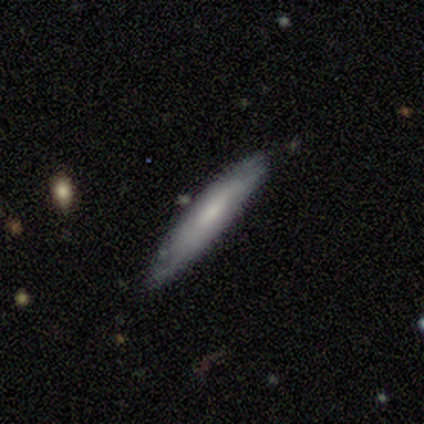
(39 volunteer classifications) Smooth or featured? 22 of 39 (56%) said smooth. How rounded? 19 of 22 (86%) said cigar-shaped. Merging? 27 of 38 (71%) said none.